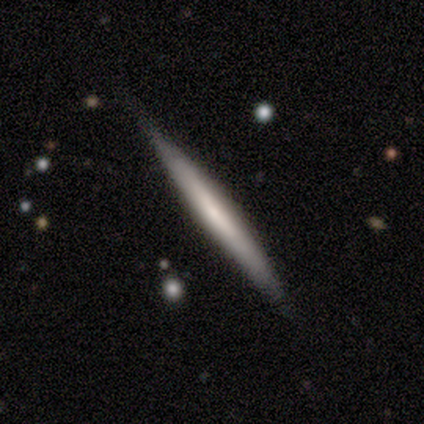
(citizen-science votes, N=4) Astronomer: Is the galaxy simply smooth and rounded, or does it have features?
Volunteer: smooth — 50%, tied with featured or disk at 50%.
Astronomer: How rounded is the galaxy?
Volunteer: cigar-shaped — 100%.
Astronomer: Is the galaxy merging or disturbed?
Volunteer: none — 75%.